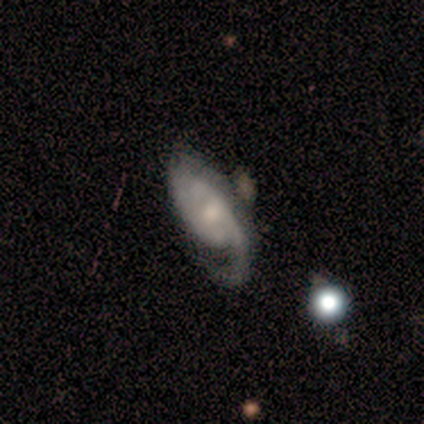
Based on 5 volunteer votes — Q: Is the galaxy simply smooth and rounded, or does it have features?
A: featured or disk — 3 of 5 (60%).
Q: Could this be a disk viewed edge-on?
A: no — 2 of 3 (67%).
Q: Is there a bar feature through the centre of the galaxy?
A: weak — 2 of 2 (100%).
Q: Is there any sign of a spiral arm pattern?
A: yes — 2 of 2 (100%).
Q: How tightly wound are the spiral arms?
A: tight — 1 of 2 (50%, tied with medium).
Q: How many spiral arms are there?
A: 1 — 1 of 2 (50%, tied with 2).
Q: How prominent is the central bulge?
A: moderate — 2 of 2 (100%).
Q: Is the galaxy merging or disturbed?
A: minor disturbance — 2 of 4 (50%).